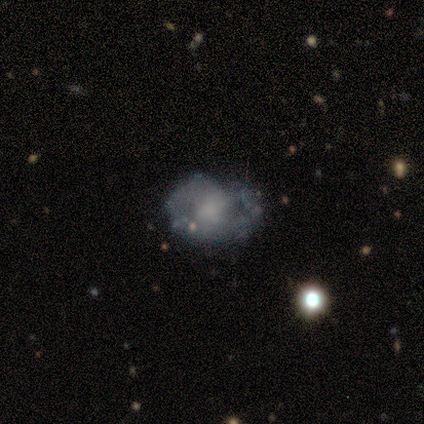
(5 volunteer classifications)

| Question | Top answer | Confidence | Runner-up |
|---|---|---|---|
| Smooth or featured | featured or disk | 80% | smooth (20%) |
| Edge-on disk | no | 100% | — |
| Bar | no | 100% | — |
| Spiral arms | yes | 50% | tied: no (50%) |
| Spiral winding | tight | 50% | tied: medium (50%) |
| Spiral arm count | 2 | 50% | tied: can't tell (50%) |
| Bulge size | dominant | 25% | tied: moderate (25%), small (25%), none (25%) |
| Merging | none | 60% | minor disturbance (20%) |